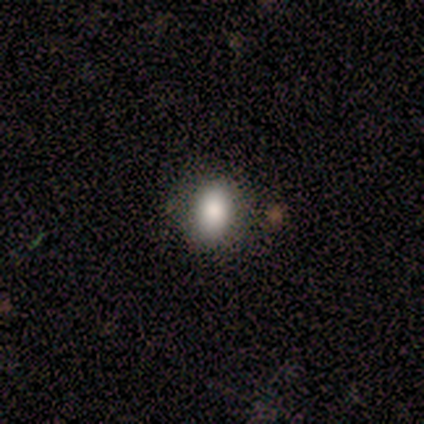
Smooth or featured? smooth (85%)
How rounded? in between (55%)
Merging? none (73%)